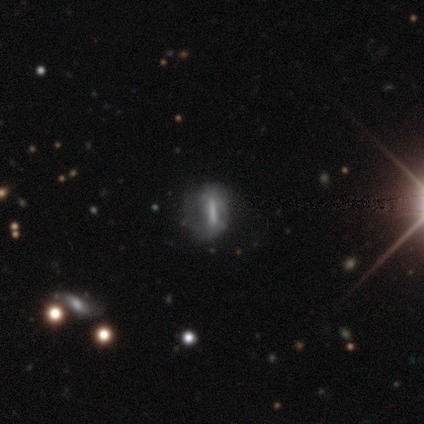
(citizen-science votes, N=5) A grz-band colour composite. It shows a featured or disk galaxy (60%) with a strong bar (100%), no spiral arms (67%) and no central bulge (67%). Merging: none (50%, tied with major disturbance).